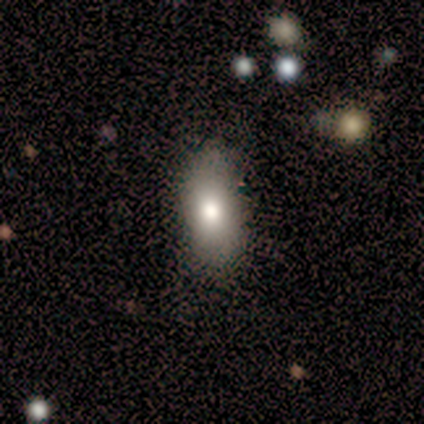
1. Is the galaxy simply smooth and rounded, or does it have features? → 60% smooth, 20% featured or disk, 20% star or artifact.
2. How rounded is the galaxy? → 100% in between, 0% round, 0% cigar-shaped.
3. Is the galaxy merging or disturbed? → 50% none (tied), 50% minor disturbance (tied), 0% major disturbance, 0% merger.